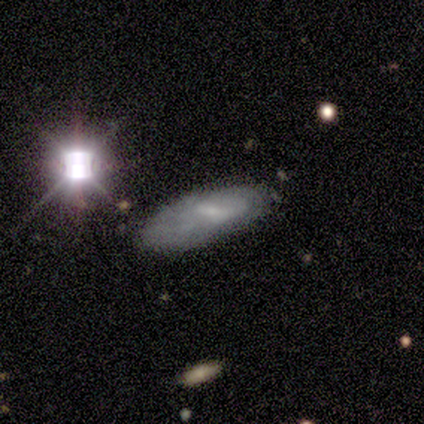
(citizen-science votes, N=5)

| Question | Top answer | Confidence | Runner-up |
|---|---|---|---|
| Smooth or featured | smooth | 40% | tied: featured or disk (40%) |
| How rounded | in between | 100% | — |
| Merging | none | 100% | — |